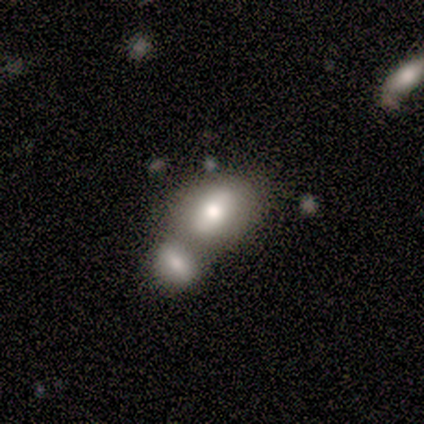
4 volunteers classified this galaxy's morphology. smooth 100%, featured or disk 0%, star or artifact 0%. Down the decision tree: how rounded — in between (100%); merging — merger (100%).